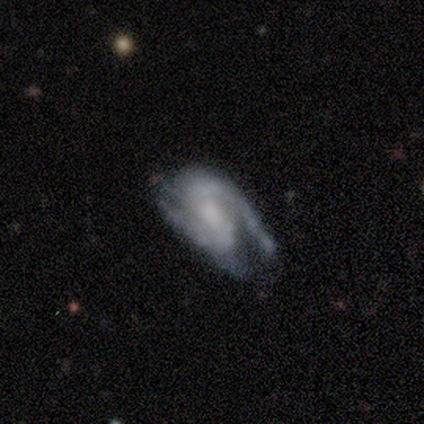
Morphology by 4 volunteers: A featured or disk galaxy (75%) with a strong bar (33%, tied with weak and no), 2 (67%) medium (67%) spiral arms (100%) and a small central bulge (67%). Merging: major disturbance (67%).